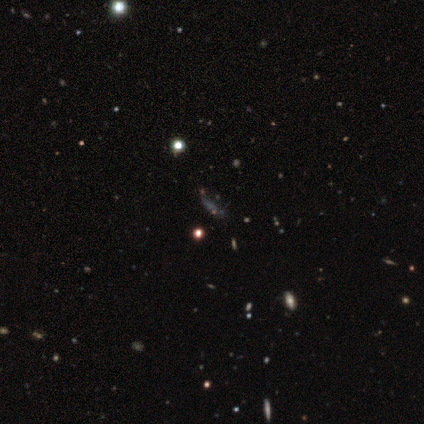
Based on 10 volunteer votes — Morphology: type=star or artifact (60%).